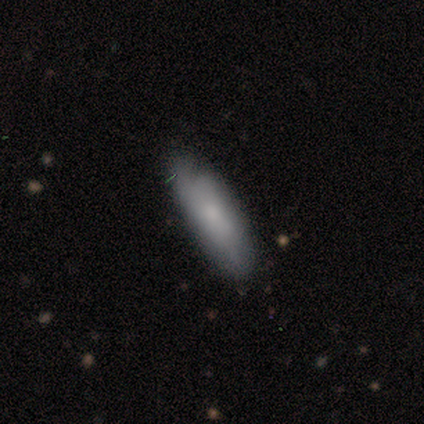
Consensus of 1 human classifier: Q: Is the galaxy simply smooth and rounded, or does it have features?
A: smooth — 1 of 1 (100%).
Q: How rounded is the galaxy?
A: cigar-shaped — 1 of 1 (100%).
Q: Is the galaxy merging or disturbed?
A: minor disturbance — 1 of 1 (100%).